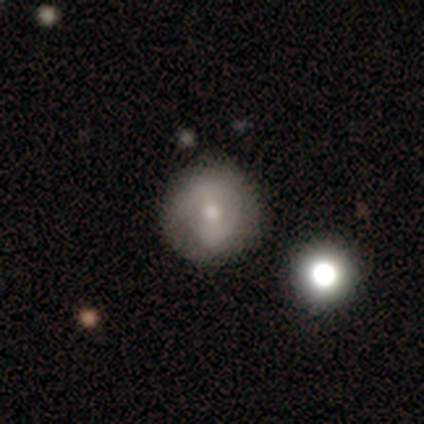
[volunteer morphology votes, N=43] type=smooth (53%); roundness=round (100%); merging=none (77%).